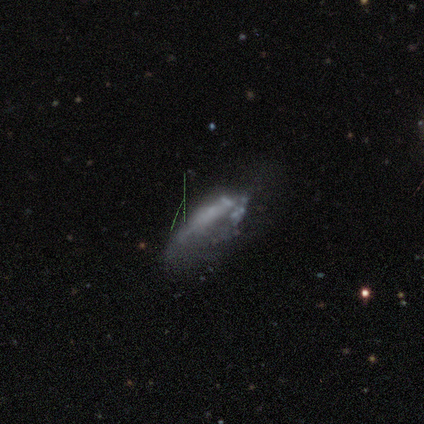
Smooth or featured?
  - smooth: 40% * (tied)
  - featured or disk: 40% * (tied)
  - star or artifact: 20%
How rounded?
  - in between: 100% *
  - round: 0%
  - cigar-shaped: 0%
Merging?
  - none: 75% *
  - merger: 25%
  - minor disturbance: 0%
  - major disturbance: 0%